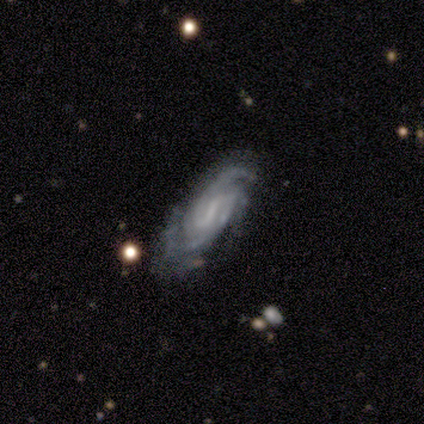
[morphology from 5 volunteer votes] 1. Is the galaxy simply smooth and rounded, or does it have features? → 100% featured or disk, 0% smooth, 0% star or artifact.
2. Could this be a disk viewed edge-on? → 80% no, 20% yes.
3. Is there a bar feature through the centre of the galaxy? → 100% weak, 0% strong, 0% no.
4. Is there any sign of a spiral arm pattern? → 100% yes, 0% no.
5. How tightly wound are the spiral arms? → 50% tight (tied), 50% medium (tied), 0% loose.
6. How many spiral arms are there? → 50% 2, 25% 3, 25% can't tell, 0% 1, 0% 4, 0% more than 4.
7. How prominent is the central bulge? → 50% small (tied), 50% none (tied), 0% dominant, 0% large, 0% moderate.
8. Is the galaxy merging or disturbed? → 80% none, 20% minor disturbance, 0% major disturbance, 0% merger.